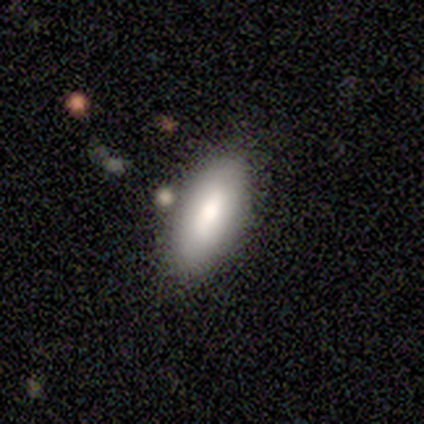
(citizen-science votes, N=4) This is clearly a smooth galaxy (100%). How rounded: clearly in between (100%). Merging: likely none (75%).